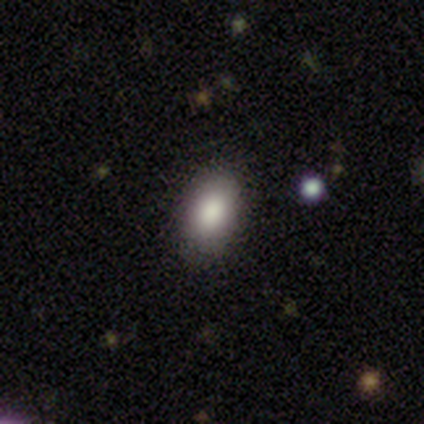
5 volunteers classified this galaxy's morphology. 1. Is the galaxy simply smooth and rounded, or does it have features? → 100% smooth, 0% featured or disk, 0% star or artifact.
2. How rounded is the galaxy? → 100% in between, 0% round, 0% cigar-shaped.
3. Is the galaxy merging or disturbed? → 80% none, 20% minor disturbance, 0% major disturbance, 0% merger.